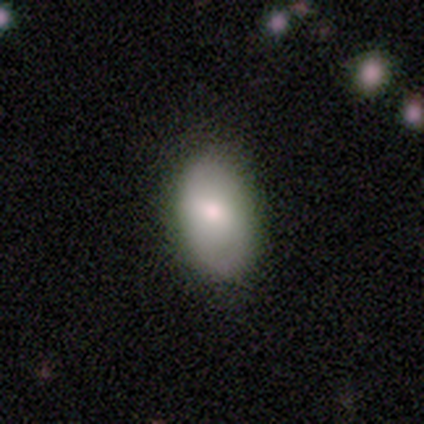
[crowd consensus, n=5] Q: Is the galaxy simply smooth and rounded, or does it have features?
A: smooth — 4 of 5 (80%).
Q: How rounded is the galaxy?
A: in between — 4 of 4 (100%).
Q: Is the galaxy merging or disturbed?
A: none — 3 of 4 (75%).